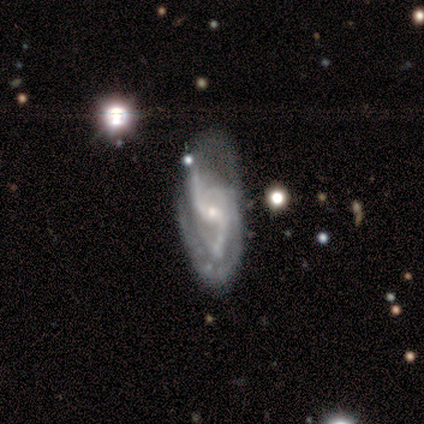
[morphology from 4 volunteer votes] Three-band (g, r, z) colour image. It shows a featured or disk galaxy (100%) with a weak bar (100%), 2 (75%) loose (75%) spiral arms (100%) and a moderate central bulge (75%). Merging: none (50%).